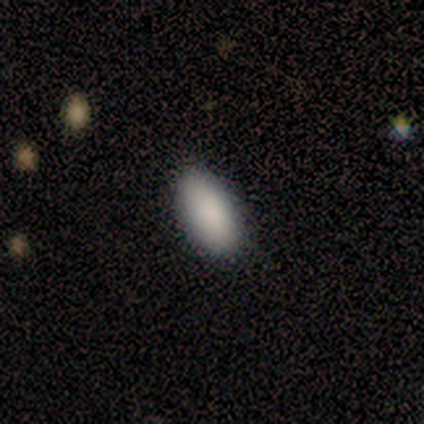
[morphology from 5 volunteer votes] This is clearly a smooth galaxy (80%). How rounded: clearly in between (100%). Merging: clearly none (100%).